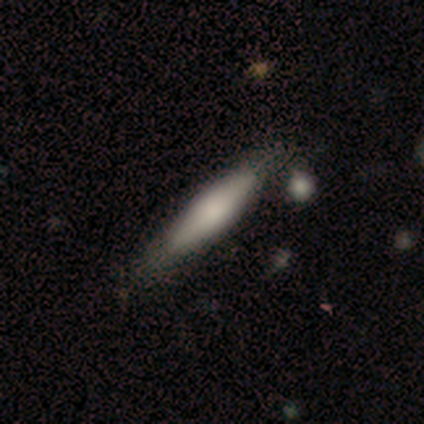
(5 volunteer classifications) Smooth or featured? smooth (100%)
How rounded? in between (60%)
Merging? none (80%)